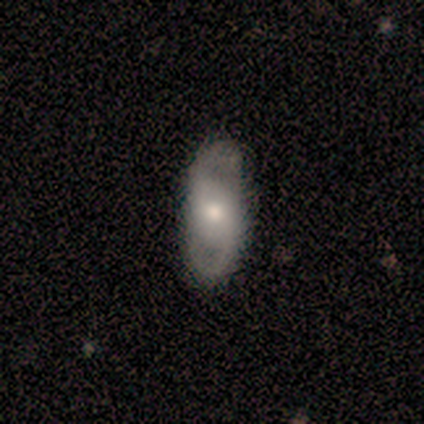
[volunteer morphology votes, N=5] Volunteers were most divided on "spiral winding": loose: 75%, tight: 25%, medium: 0%. More confident: edge-on disk — no (100%); bar — no (100%); spiral arms — yes (100%); spiral arm count — 2 (100%); bulge size — moderate (100%); merging — none (100%); smooth or featured — featured or disk (80%).